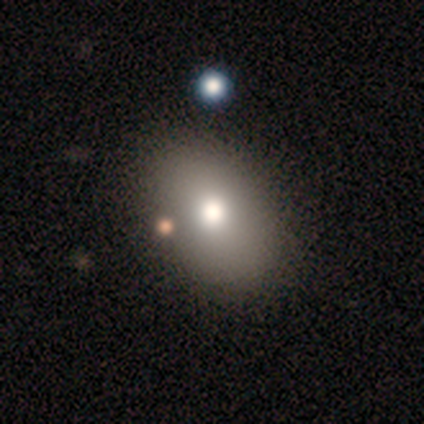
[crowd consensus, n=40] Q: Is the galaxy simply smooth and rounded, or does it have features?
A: smooth — 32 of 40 (80%).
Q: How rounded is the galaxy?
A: in between — 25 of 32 (78%).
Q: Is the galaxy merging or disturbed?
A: none — 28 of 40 (70%).